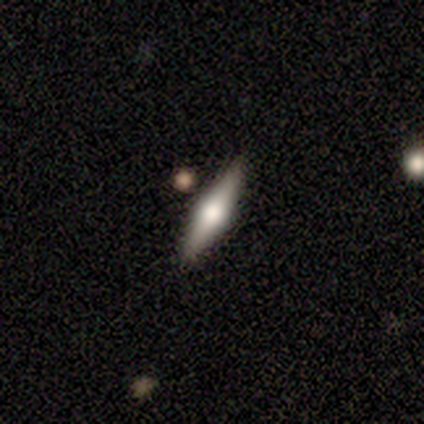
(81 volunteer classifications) Overall: featured or disk (69%). Edge-on disk: yes (93%). Edge-on bulge: rounded (96%). Merging: none (91%).